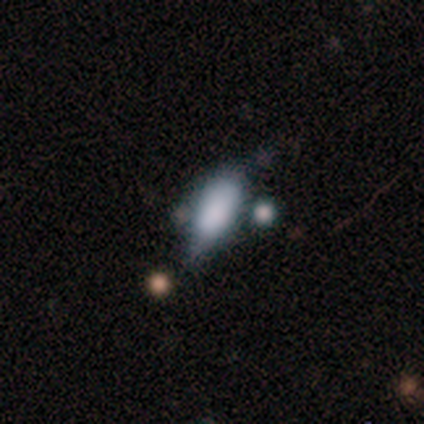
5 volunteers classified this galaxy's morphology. Overall: smooth (40%, tied with featured or disk). How rounded: in between (100%). Merging: none (25%, tied with minor disturbance, major disturbance and merger).